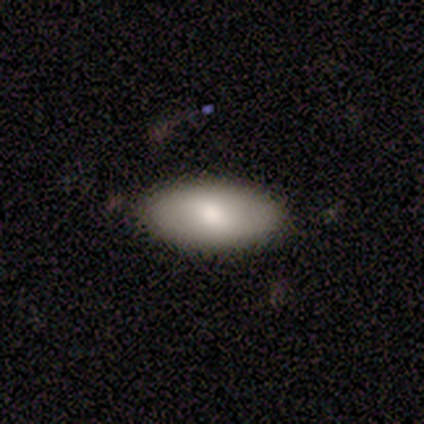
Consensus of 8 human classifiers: This appears to be a smooth galaxy with no disk features (75%) that is in between round and cigar-shaped (100%). Merging: none (100%).